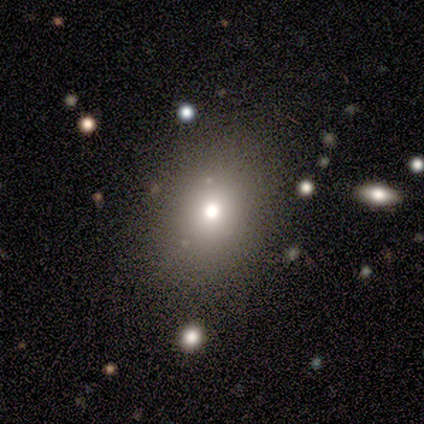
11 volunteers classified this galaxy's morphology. smooth-or-featured: smooth: 45% (tied) | star or artifact: 45% (tied) | featured or disk: 9%
  how-rounded: in between: 60% | round: 40% | cigar-shaped: 0%
  merging: none: 83% | minor disturbance: 17% | major disturbance: 0% | merger: 0%